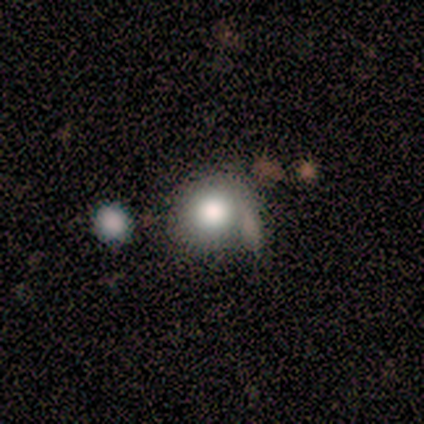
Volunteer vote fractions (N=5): Q: Smooth or featured?
A: smooth (80%); runner-up: featured or disk (20%)
Q: How rounded?
A: round (100%)
Q: Merging?
A: none (60%); runner-up: major disturbance (40%)